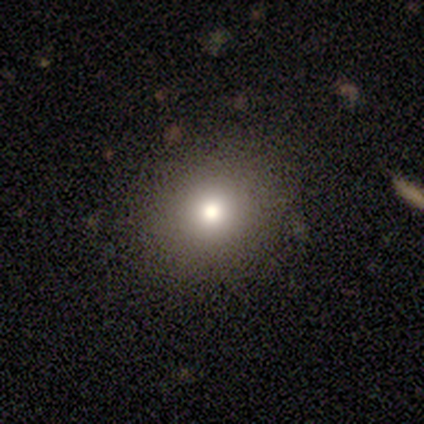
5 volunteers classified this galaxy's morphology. A smooth galaxy with no disk features (60%) that is round (67%).

Vote fractions:
- Smooth or featured? smooth: 60% / featured or disk: 20% / star or artifact: 20%
- How rounded? round: 67% / in between: 33% / cigar-shaped: 0%
- Merging? none: 75% / minor disturbance: 25% / major disturbance: 0% / merger: 0%